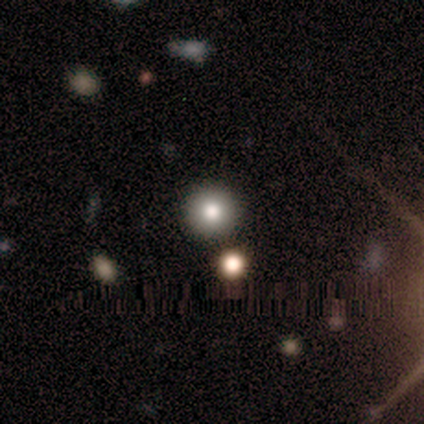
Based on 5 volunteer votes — Smooth or featured? smooth (60%)
How rounded? round (100%)
Merging? none (100%)